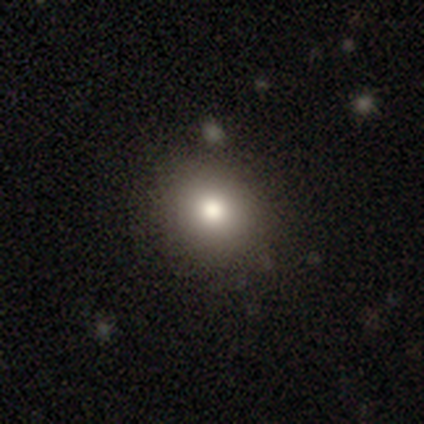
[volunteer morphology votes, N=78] Smooth or featured? smooth (82%)
How rounded? round (84%)
Merging? none (51%)